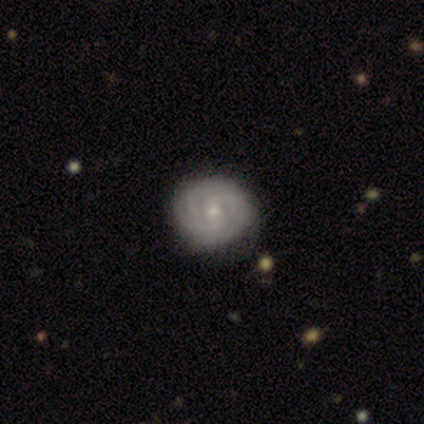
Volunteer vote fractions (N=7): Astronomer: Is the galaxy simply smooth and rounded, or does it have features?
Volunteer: featured or disk — 100%.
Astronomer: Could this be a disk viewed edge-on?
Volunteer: no — 100%.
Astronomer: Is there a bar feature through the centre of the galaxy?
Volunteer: weak — 57%.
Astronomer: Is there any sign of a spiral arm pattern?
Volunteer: yes — 86%.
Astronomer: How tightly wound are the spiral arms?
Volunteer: tight — 67%.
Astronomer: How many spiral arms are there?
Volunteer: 3 — 67%.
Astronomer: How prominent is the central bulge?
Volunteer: small — 86%.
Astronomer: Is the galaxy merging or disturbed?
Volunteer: none — 86%.